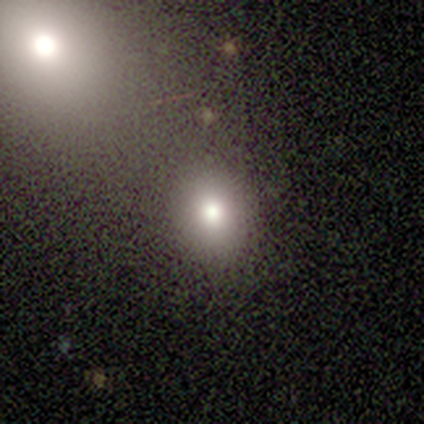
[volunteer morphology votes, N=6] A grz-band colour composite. It shows a smooth galaxy with no disk features (50%) that is round (67%). Merging: none (75%).